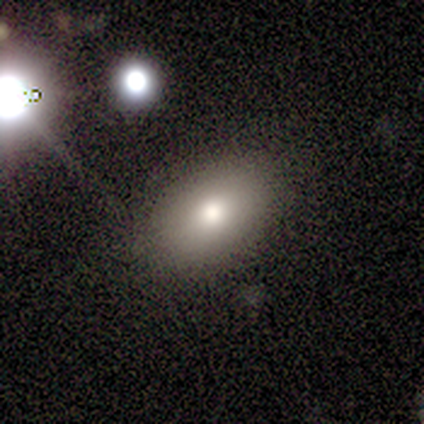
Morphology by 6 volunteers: This appears to be a smooth galaxy with no disk features (83%) that is in between round and cigar-shaped (100%). Merging: none (100%).